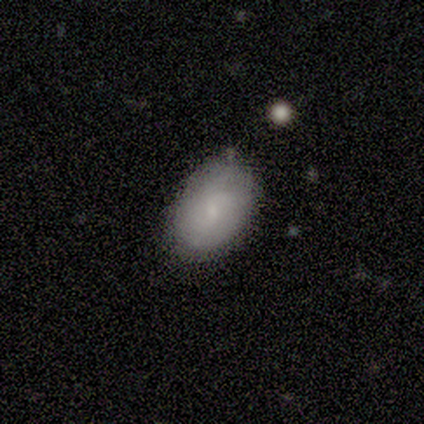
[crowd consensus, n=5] smooth_or_featured: featured or disk (p=0.60) [alt: smooth p=0.40]
disk_edge_on: no (p=1.00)
bar: no (p=0.67) [alt: weak p=0.33]
has_spiral_arms: yes (p=0.67) [alt: no p=0.33]
spiral_winding: tight (p=0.50) [tied with: loose p=0.50]
spiral_arm_count: 3 (p=0.50) [tied with: can't tell p=0.50]
bulge_size: small (p=0.67) [alt: none p=0.33]
merging: none (p=1.00)